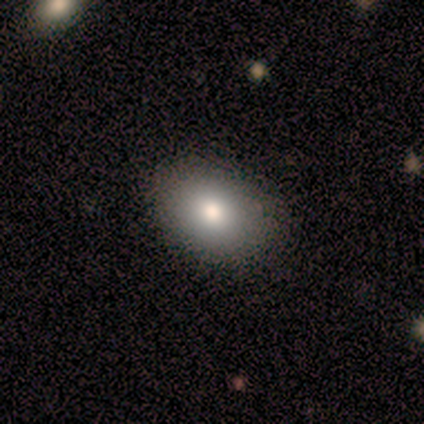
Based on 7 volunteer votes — Volunteers were most divided on "merging": none: 57%, minor disturbance: 43%, major disturbance: 0%, merger: 0%. More confident: smooth or featured — smooth (100%); how rounded — in between (100%).